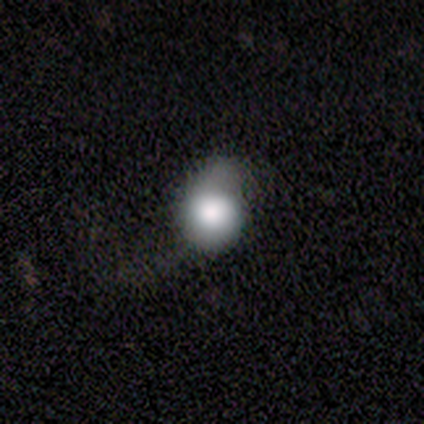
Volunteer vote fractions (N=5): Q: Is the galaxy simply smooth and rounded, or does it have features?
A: smooth — 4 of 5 (80%).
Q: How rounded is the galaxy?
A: in between — 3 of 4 (75%).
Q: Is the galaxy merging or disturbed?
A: minor disturbance — 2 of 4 (50%).